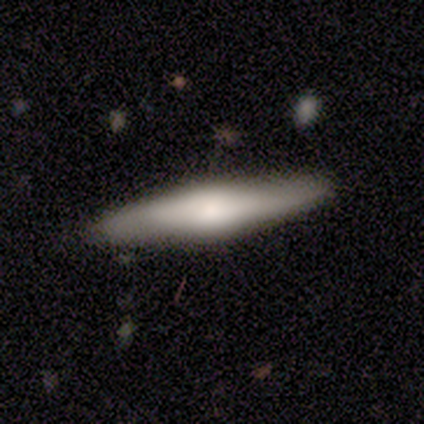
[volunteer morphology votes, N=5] Smooth or featured?
  - smooth: 60% *
  - featured or disk: 40%
  - star or artifact: 0%
How rounded?
  - round: 33% * (tied)
  - in between: 33% * (tied)
  - cigar-shaped: 33% * (tied)
Merging?
  - none: 80% *
  - merger: 20%
  - minor disturbance: 0%
  - major disturbance: 0%